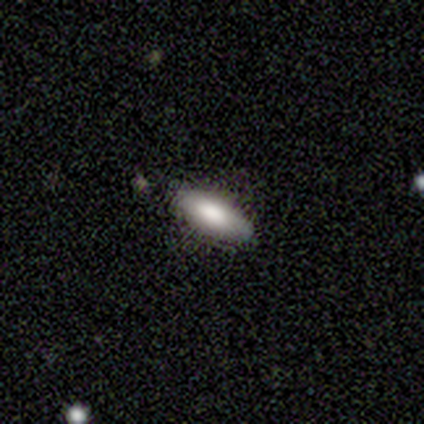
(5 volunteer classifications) smooth_or_featured: smooth (p=0.80) [alt: featured or disk p=0.20]
how_rounded: in between (p=0.75) [alt: cigar-shaped p=0.25]
merging: none (p=0.80) [alt: minor disturbance p=0.20]